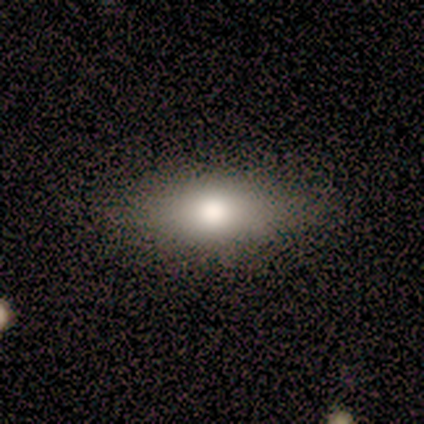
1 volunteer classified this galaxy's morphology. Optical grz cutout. It shows a star or artifact, not a galaxy (100%).